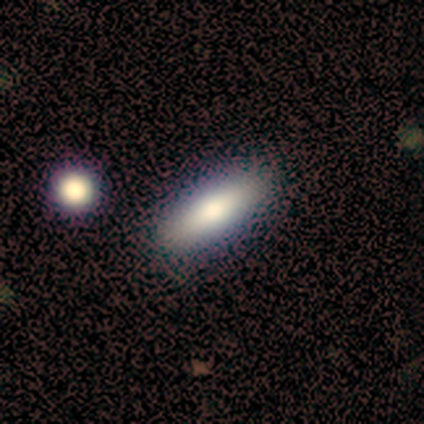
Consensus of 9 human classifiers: smooth 78%, featured or disk 22%, star or artifact 0%. Down the decision tree: how rounded — cigar-shaped (57%); merging — none (89%).